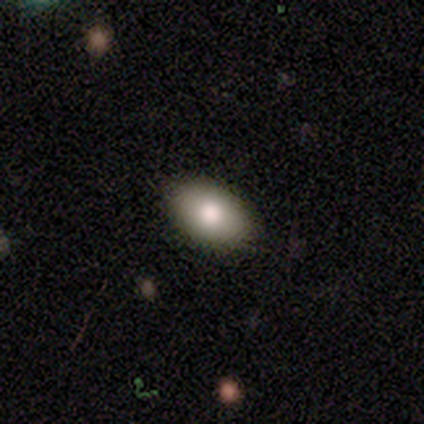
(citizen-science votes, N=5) Volunteers were most divided on "merging": none: 60%, minor disturbance: 20%, major disturbance: 20%, merger: 0%. More confident: how rounded — in between (100%); smooth or featured — smooth (80%).